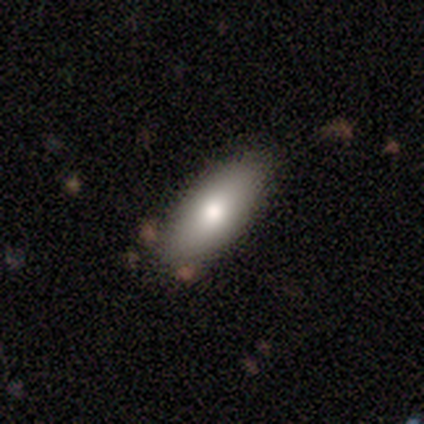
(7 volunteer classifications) Smooth or featured: smooth — 86% (featured or disk — 14%)
How rounded: in between — 100%
Merging: none — 86% (minor disturbance — 14%)